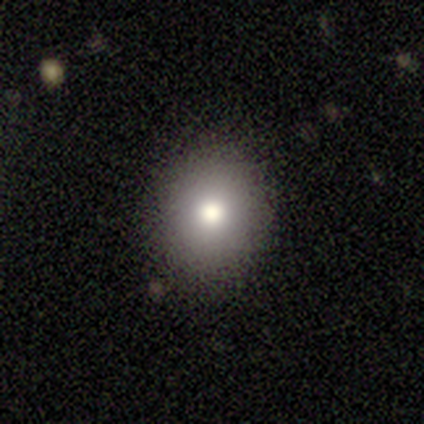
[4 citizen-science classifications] smooth 75%, featured or disk 25%, star or artifact 0%. Down the decision tree: how rounded — round (67%); merging — none (100%).